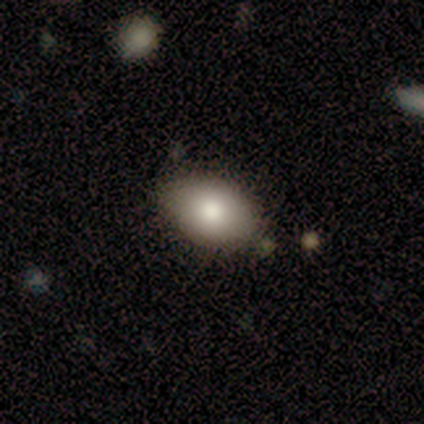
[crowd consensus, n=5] This appears to be a smooth galaxy with no disk features (100%) that is in between round and cigar-shaped (80%). Merging: none (100%).